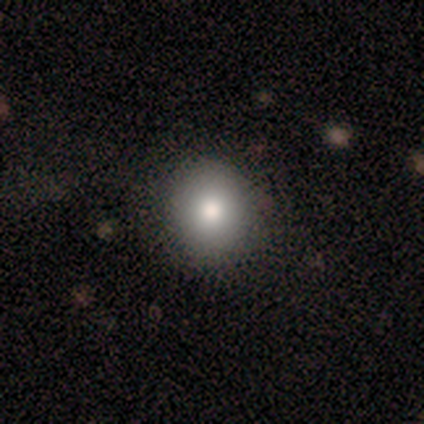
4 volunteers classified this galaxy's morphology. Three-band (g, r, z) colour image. It shows a smooth galaxy with no disk features (75%) that is round (67%). Merging: none (100%).